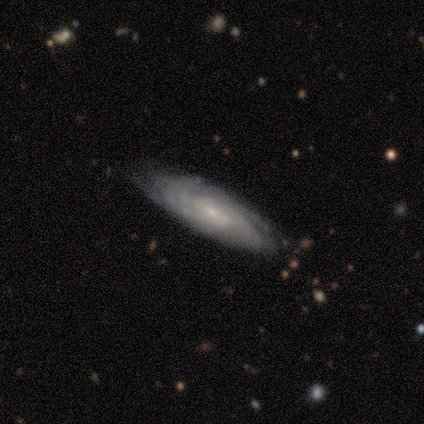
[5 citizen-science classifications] This appears to be a featured or disk galaxy (100%) with a weak bar (60%), tight (100%) spiral arms (100%) and a small central bulge (60%). Merging: none (80%).